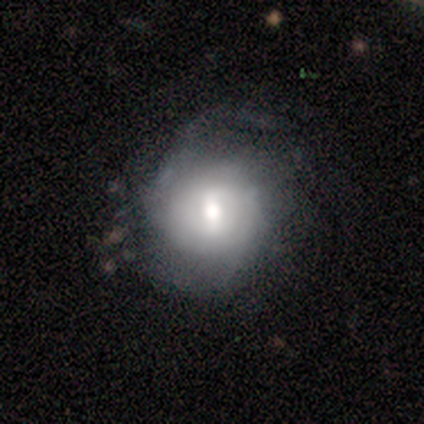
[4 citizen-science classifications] A smooth galaxy with no disk features (50%, tied with featured or disk) that is round (50%, tied with in between).

Vote fractions:
- Smooth or featured? smooth: 50% (tied) / featured or disk: 50% (tied) / star or artifact: 0%
- How rounded? round: 50% (tied) / in between: 50% (tied) / cigar-shaped: 0%
- Merging? none: 50% (tied) / minor disturbance: 50% (tied) / major disturbance: 0% / merger: 0%